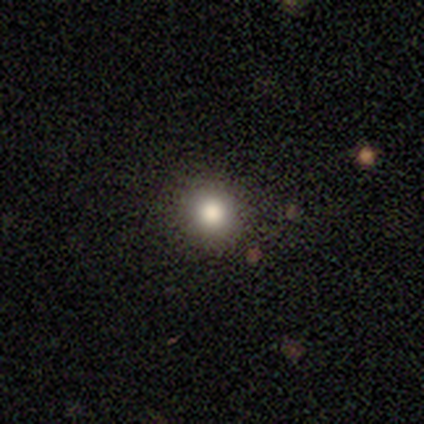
smooth_or_featured: smooth (p=0.75) [alt: star or artifact p=0.23]
how_rounded: round (p=0.93) [alt: in between p=0.07]
merging: none (p=0.97) [alt: minor disturbance p=0.03]